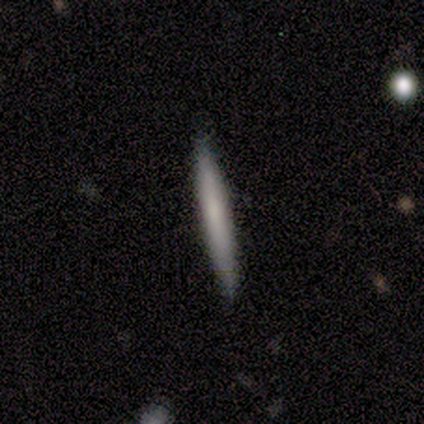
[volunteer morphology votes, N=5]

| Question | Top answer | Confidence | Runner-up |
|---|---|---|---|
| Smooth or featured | smooth | 80% | star or artifact (20%) |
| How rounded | cigar-shaped | 100% | — |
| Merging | none | 100% | — |